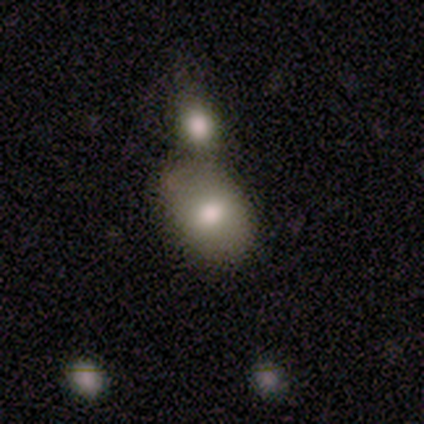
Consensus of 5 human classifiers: This appears to be a smooth galaxy with no disk features (100%) that is in between round and cigar-shaped (100%). Merging: none (80%).